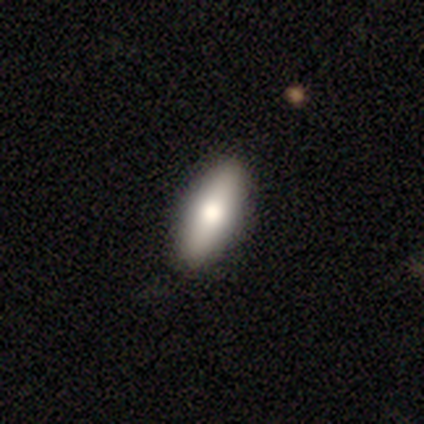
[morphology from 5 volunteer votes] Smooth or featured? smooth (80%)
How rounded? in between (75%)
Merging? none (80%)